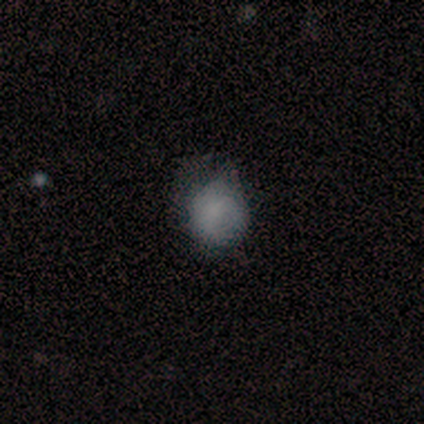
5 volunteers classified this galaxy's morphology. Smooth or featured?
  - smooth: 40% * (tied)
  - featured or disk: 40% * (tied)
  - star or artifact: 20%
How rounded?
  - round: 100% *
  - in between: 0%
  - cigar-shaped: 0%
Merging?
  - major disturbance: 50% *
  - none: 25%
  - minor disturbance: 25%
  - merger: 0%